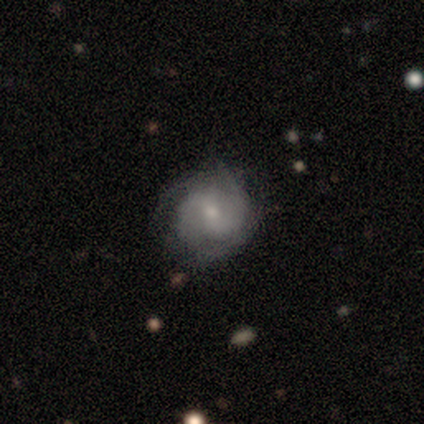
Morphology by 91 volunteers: This is likely a featured or disk galaxy (75%). It is clearly not viewed edge-on (97%). Bar: possibly weak (50%). Spiral arm pattern: clearly yes (92%). Spiral arm count: possibly 2 (54%). Spiral winding: marginally tight (44%). Central bulge: possibly small (59%). Merging: likely none (67%).